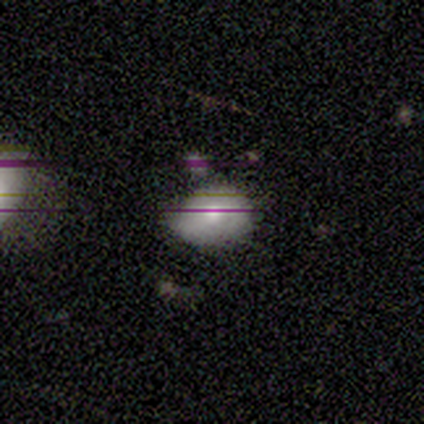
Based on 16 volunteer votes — Smooth or featured? smooth (56%)
How rounded? in between (100%)
Merging? minor disturbance (64%)